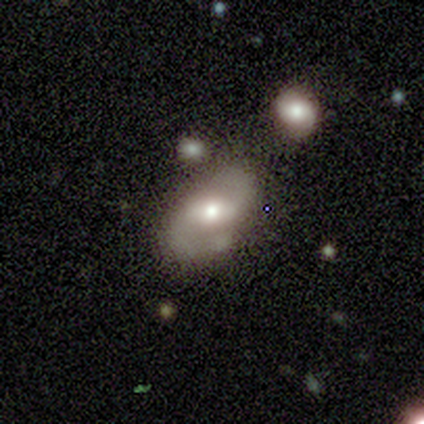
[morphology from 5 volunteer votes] Overall: smooth (60%; featured or disk 40%). How rounded: in between (100%). Merging: none (80%).